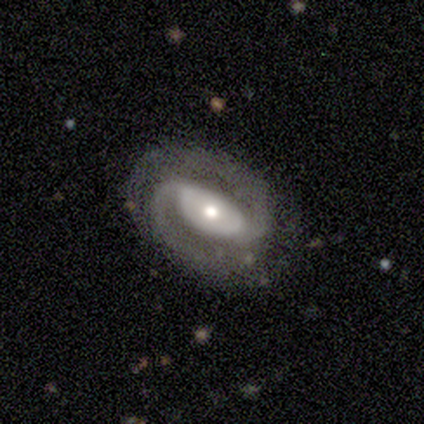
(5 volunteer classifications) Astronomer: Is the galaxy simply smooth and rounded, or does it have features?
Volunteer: featured or disk — 80%.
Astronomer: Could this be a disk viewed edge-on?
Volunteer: no — 100%.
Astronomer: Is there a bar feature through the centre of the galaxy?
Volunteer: strong — 50%, tied with no at 50%.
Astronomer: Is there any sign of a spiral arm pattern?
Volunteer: yes — 100%.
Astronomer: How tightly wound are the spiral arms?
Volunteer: medium — 75%.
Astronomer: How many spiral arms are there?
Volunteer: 2 — 100%.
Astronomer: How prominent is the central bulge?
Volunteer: moderate — 75%.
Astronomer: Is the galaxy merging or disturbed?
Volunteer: none — 100%.